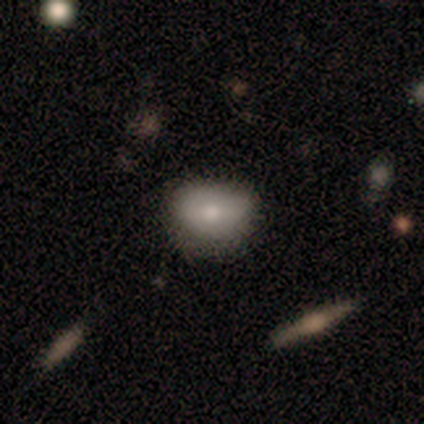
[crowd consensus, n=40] A smooth galaxy with no disk features (78%) that is in between round and cigar-shaped (61%).

Vote fractions:
- Smooth or featured? smooth: 78% / featured or disk: 12% / star or artifact: 10%
- How rounded? in between: 61% / round: 39% / cigar-shaped: 0%
- Merging? none: 78% / minor disturbance: 19% / major disturbance: 3% / merger: 0%